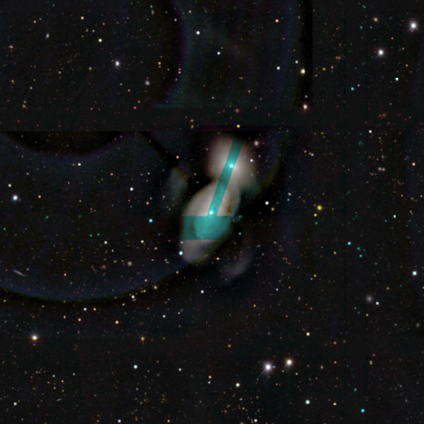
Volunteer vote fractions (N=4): A featured or disk galaxy (50%) with a weak bar (50%, tied with no), 2 (100%) tight (50%, tied with medium) spiral arms (100%) and a moderate central bulge (50%, tied with small).

Vote fractions:
- Smooth or featured? featured or disk: 50% / smooth: 25% / star or artifact: 25%
- Edge-on disk? no: 100% / yes: 0%
- Bar? weak: 50% (tied) / no: 50% (tied) / strong: 0%
- Spiral arms? yes: 100% / no: 0%
- Spiral winding? tight: 50% (tied) / medium: 50% (tied) / loose: 0%
- Spiral arm count? 2: 100% / 1: 0% / 3: 0% / 4: 0% / more than 4: 0% / can't tell: 0%
- Bulge size? moderate: 50% (tied) / small: 50% (tied) / dominant: 0% / large: 0% / none: 0%
- Merging? merger: 67% / major disturbance: 33% / none: 0% / minor disturbance: 0%